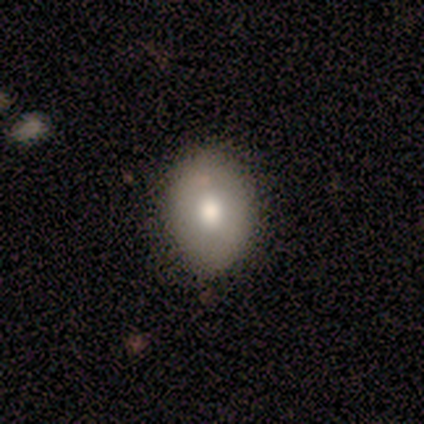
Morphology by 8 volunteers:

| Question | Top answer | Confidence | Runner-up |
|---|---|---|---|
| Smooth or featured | smooth | 88% | featured or disk (12%) |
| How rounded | in between | 57% | round (43%) |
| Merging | none | 75% | minor disturbance (12%) |